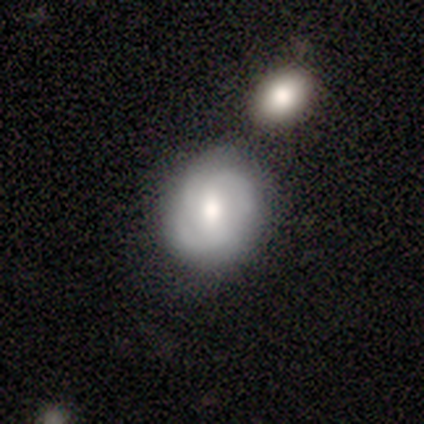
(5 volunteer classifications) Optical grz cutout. It shows a featured or disk galaxy (100%) with no bar (60%), 2 (40%, tied with 3) tight (40%, tied with medium) spiral arms (100%) and a moderate central bulge (80%). Merging: none (80%).